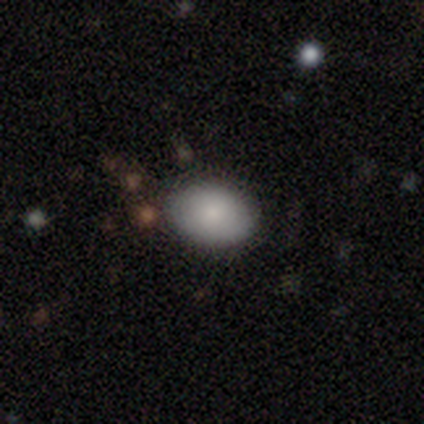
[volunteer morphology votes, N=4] This is clearly a smooth galaxy (100%). How rounded: clearly in between (100%). Merging: clearly none (100%).